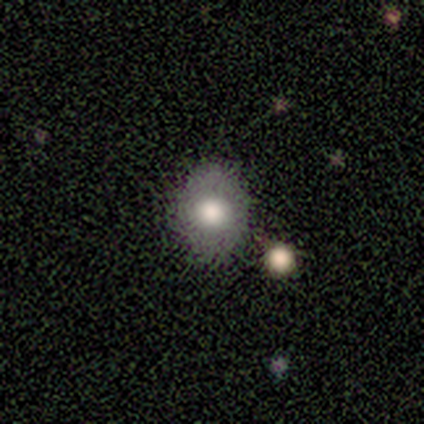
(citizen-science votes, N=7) A featured or disk galaxy (57%) with no bar (75%), no spiral arms (100%) and a large central bulge (75%).

Vote fractions:
- Smooth or featured? featured or disk: 57% / star or artifact: 29% / smooth: 14%
- Edge-on disk? no: 100% / yes: 0%
- Bar? no: 75% / weak: 25% / strong: 0%
- Spiral arms? no: 100% / yes: 0%
- Bulge size? large: 75% / moderate: 25% / dominant: 0% / small: 0% / none: 0%
- Merging? none: 80% / major disturbance: 20% / minor disturbance: 0% / merger: 0%